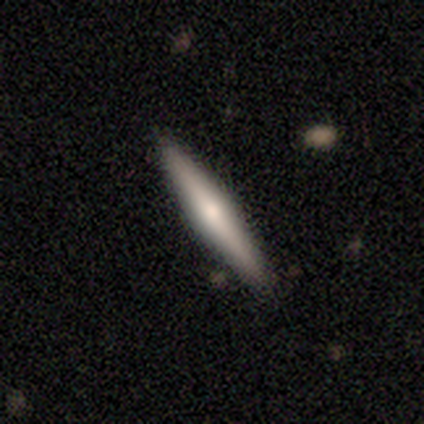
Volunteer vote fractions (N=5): Morphology: type=smooth (60%); roundness=cigar-shaped (100%); merging=none (100%).